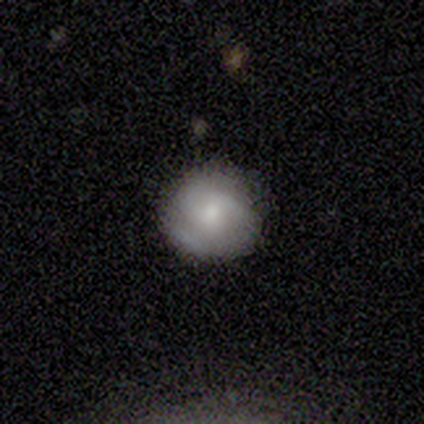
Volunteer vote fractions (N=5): Morphology: type=featured or disk (60%); edge-on=no (100%); bar=no (100%); spiral arms=yes (67%); winding=medium (100%); arm count=2 (50%, tied with can't tell); bulge=small (67%); merging=none (80%).